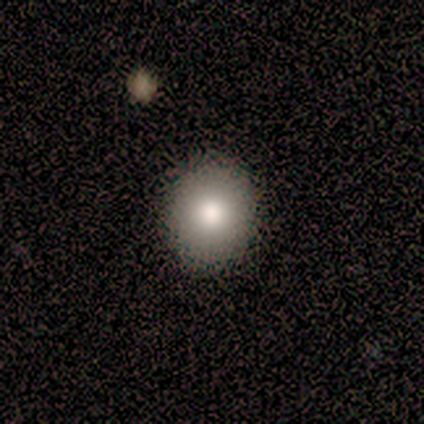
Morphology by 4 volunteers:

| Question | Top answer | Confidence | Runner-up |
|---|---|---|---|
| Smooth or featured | smooth | 100% | — |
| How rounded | round | 50% | tied: in between (50%) |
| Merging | none | 100% | — |